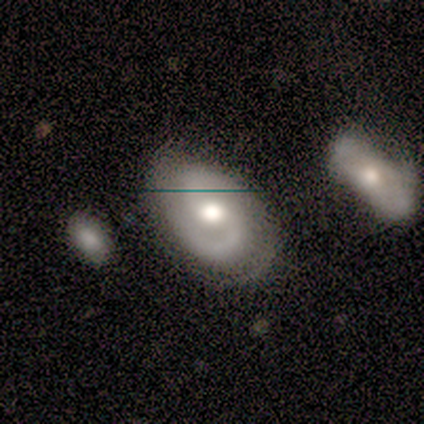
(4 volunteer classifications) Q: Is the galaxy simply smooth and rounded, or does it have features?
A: featured or disk — 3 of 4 (75%).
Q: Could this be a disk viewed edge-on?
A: no — 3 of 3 (100%).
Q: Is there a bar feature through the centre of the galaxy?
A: no — 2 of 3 (67%).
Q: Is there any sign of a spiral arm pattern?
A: yes — 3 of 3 (100%).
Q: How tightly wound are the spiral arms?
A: medium — 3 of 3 (100%).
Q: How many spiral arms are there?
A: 2 — 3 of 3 (100%).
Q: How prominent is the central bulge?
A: moderate — 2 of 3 (67%).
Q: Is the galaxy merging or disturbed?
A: none — 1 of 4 (25%, tied with minor disturbance, major disturbance and merger).